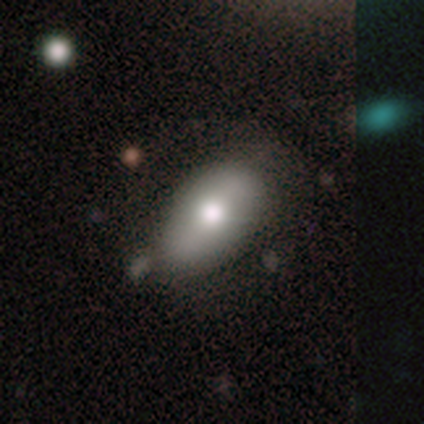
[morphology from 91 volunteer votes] smooth 66%, featured or disk 24%, star or artifact 10%. Down the decision tree: how rounded — in between (88%); merging — none (57%).